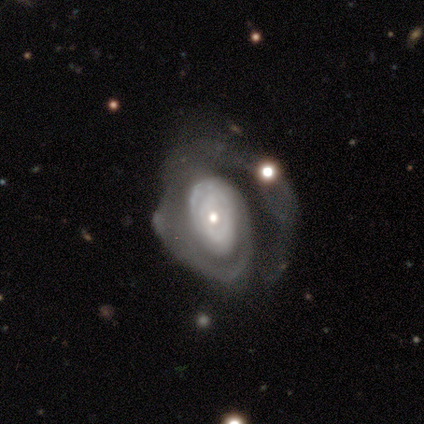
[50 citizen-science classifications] Smooth or featured? 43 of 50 (86%) said featured or disk. Edge-on disk? 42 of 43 (98%) said no. Bar? 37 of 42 (88%) said no. Spiral arms? 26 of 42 (62%) said yes. Spiral winding? 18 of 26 (69%) said tight. Spiral arm count? 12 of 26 (46%) said can't tell. Bulge size? 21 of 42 (50%) said moderate. Merging? 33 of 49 (67%) said major disturbance.